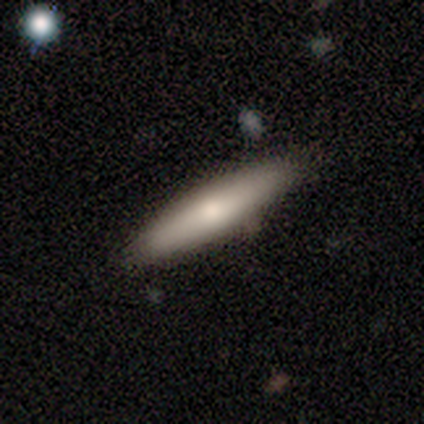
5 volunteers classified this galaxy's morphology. A smooth galaxy with no disk features (80%) that is in between round and cigar-shaped (50%, tied with cigar-shaped). Merging: none (50%, tied with minor disturbance).